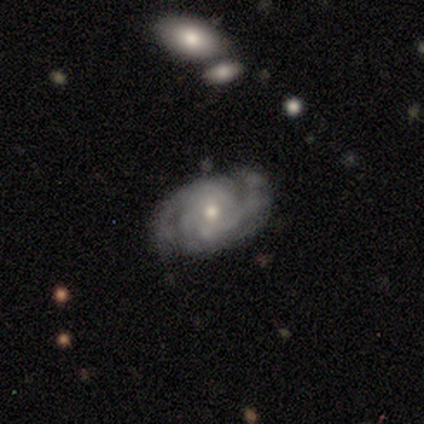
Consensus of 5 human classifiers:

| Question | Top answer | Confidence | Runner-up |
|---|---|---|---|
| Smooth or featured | featured or disk | 80% | smooth (20%) |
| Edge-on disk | no | 75% | yes (25%) |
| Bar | no | 100% | — |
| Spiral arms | yes | 100% | — |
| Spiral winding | tight | 67% | medium (33%) |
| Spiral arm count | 2 | 67% | 3 (33%) |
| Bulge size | moderate | 100% | — |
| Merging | none | 80% | minor disturbance (20%) |